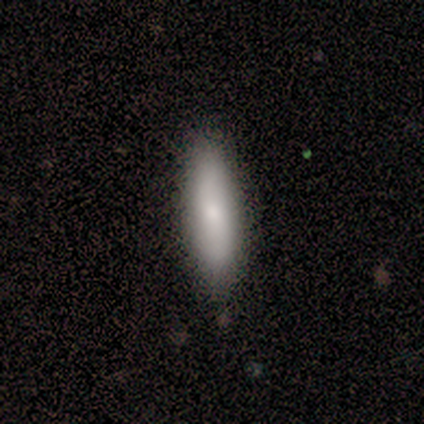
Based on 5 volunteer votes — smooth_or_featured: smooth (p=0.80) [alt: star or artifact p=0.20]
how_rounded: cigar-shaped (p=0.75) [alt: in between p=0.25]
merging: none (p=1.00)